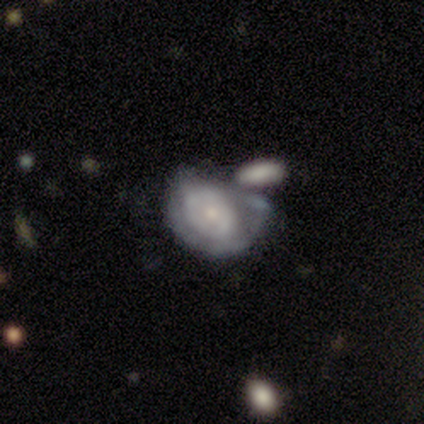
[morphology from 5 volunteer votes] Volunteers were most divided on "merging" (2-way tie): minor disturbance: 40%, major disturbance: 40%, merger: 20%, none: 0%. More confident: edge-on disk — no (100%); smooth or featured — featured or disk (80%); bar — no (75%); spiral arms — no (75%); bulge size — small (50%).